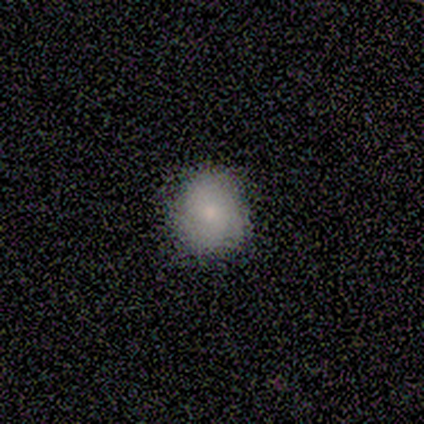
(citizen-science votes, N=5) This is clearly a smooth galaxy (100%). How rounded: clearly round (80%). Merging: clearly none (100%).